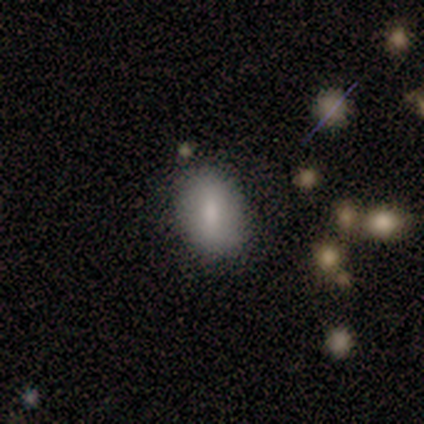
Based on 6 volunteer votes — Morphology: type=smooth (67%); roundness=in between (100%); merging=none (100%).